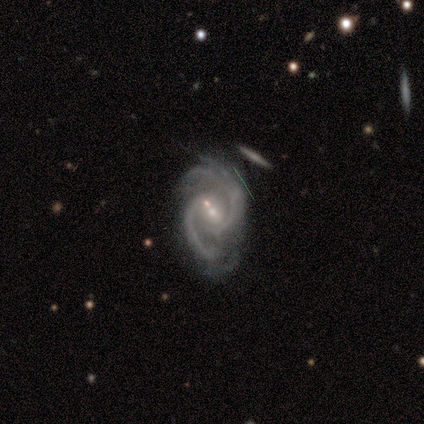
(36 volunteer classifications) Smooth or featured?
  - featured or disk: 92% *
  - smooth: 6%
  - star or artifact: 3%
Edge-on disk?
  - no: 97% *
  - yes: 3%
Bar?
  - no: 41% *
  - weak: 38%
  - strong: 22%
Spiral arms?
  - yes: 100% *
  - no: 0%
Spiral winding?
  - medium: 62% *
  - tight: 25%
  - loose: 12%
Spiral arm count?
  - 2: 81% *
  - 3: 16%
  - 4: 3%
  - 1: 0%
  - more than 4: 0%
  - can't tell: 0%
Bulge size?
  - small: 62% *
  - moderate: 38%
  - dominant: 0%
  - large: 0%
  - none: 0%
Merging?
  - none: 31% *
  - minor disturbance: 20%
  - major disturbance: 9%
  - merger: 3%